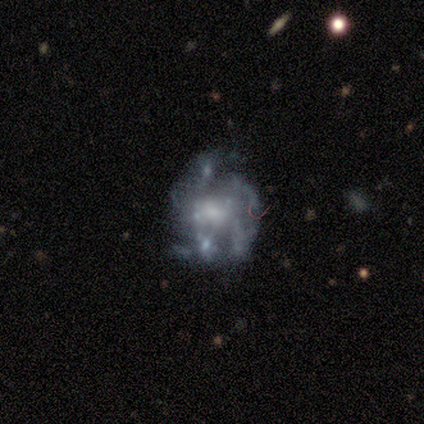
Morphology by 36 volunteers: smooth-or-featured: featured or disk: 78% | star or artifact: 19% | smooth: 3%
  disk-edge-on: no: 100% | yes: 0%
    bar: no: 82% | weak: 11% | strong: 7%
    has-spiral-arms: yes: 68% | no: 32%
      spiral-winding: medium: 47% | tight: 32% | loose: 21%
      spiral-arm-count: 4: 26% (tied) | more than 4: 26% (tied) | can't tell: 26% (tied) | 1: 11% | 2: 5% | 3: 5%
    bulge-size: moderate: 32% (tied) | small: 32% (tied) | none: 21% | dominant: 7% | large: 7%
  merging: none: 55% | major disturbance: 24% | minor disturbance: 14% | merger: 7%